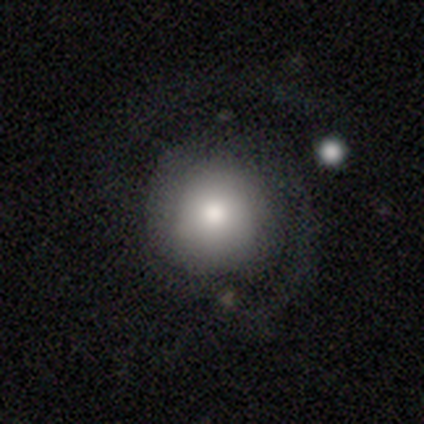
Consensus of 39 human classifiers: Smooth or featured?
  - smooth: 51% *
  - featured or disk: 41%
  - star or artifact: 8%
How rounded?
  - round: 100% *
  - in between: 0%
  - cigar-shaped: 0%
Merging?
  - none: 72% *
  - major disturbance: 17%
  - minor disturbance: 8%
  - merger: 3%